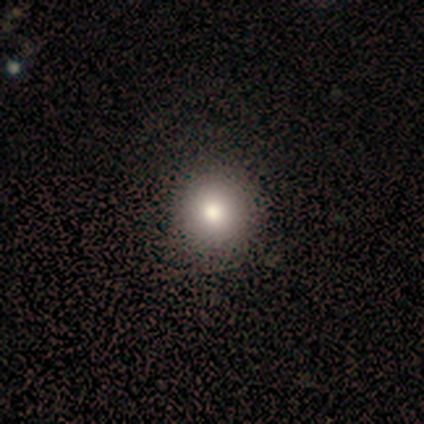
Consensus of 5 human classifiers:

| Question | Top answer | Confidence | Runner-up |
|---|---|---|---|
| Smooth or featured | smooth | 80% | star or artifact (20%) |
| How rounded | round | 100% | — |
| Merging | none | 100% | — |